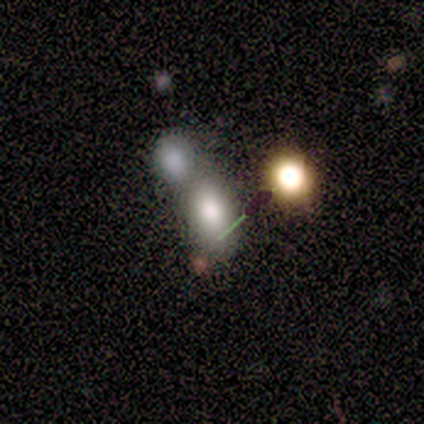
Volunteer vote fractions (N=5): This is likely a smooth galaxy (60%). How rounded: clearly in between (100%). Merging: likely merger (67%).